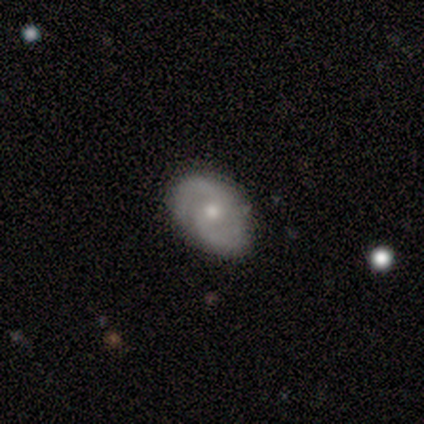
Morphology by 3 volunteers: This is likely a featured or disk galaxy (67%). It is clearly not viewed edge-on (100%). Bar: possibly strong (50%, tied with weak). Spiral arm pattern: clearly yes (100%). Spiral arm count: possibly 2 (50%, tied with can't tell). Spiral winding: possibly tight (50%, tied with medium). Central bulge: possibly large (50%, tied with small). Merging: clearly none (100%).